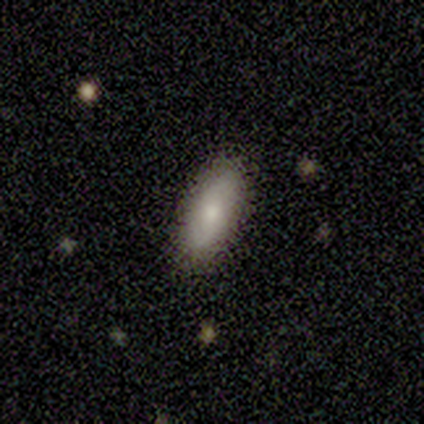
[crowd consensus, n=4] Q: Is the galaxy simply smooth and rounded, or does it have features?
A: smooth — 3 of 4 (75%).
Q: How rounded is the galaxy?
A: in between — 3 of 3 (100%).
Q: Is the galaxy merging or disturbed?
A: none — 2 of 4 (50%, tied with minor disturbance).